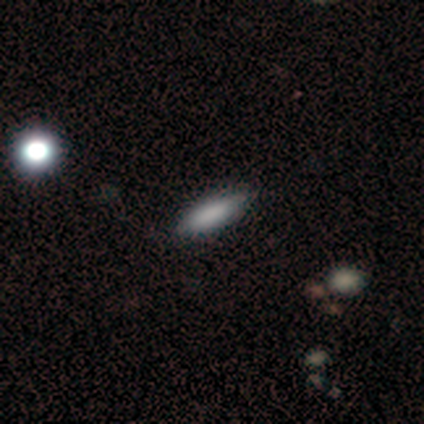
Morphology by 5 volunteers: Smooth or featured? 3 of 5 (60%) said smooth. How rounded? 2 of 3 (67%) said cigar-shaped. Merging? 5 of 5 (100%) said none.